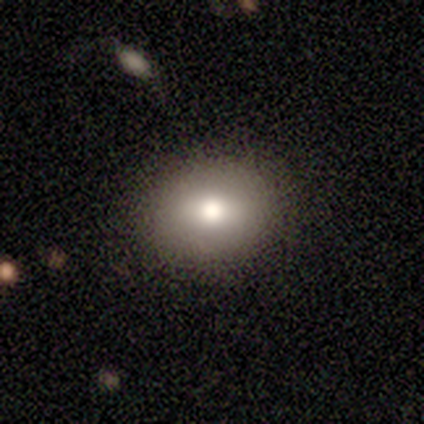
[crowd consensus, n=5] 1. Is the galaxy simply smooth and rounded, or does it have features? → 60% smooth, 40% featured or disk, 0% star or artifact.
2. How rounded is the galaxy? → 67% round, 33% in between, 0% cigar-shaped.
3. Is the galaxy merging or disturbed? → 100% none, 0% minor disturbance, 0% major disturbance, 0% merger.